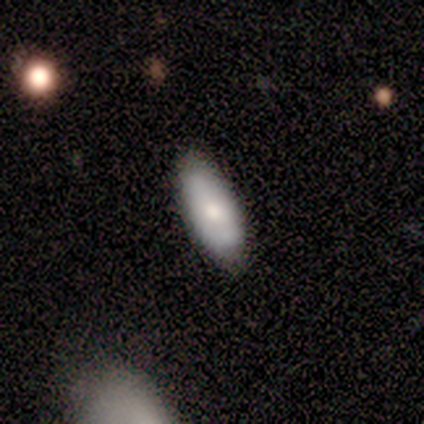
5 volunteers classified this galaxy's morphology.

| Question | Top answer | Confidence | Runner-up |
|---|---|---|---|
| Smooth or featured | smooth | 100% | — |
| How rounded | in between | 100% | — |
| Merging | none | 80% | minor disturbance (20%) |